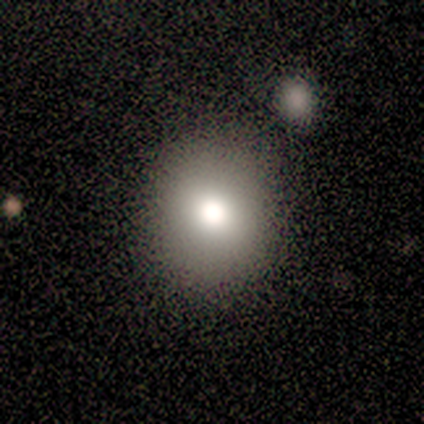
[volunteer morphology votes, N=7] Smooth or featured? smooth (71%)
How rounded? round (80%)
Merging? none (83%)